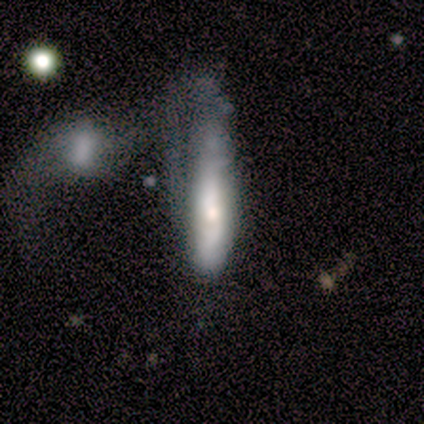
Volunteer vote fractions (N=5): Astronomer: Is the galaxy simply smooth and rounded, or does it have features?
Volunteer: smooth — 80%.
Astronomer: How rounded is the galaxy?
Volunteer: in between — 50%, tied with cigar-shaped at 50%.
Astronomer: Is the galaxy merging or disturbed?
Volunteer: minor disturbance — 40% (runner-up: none, 20%).